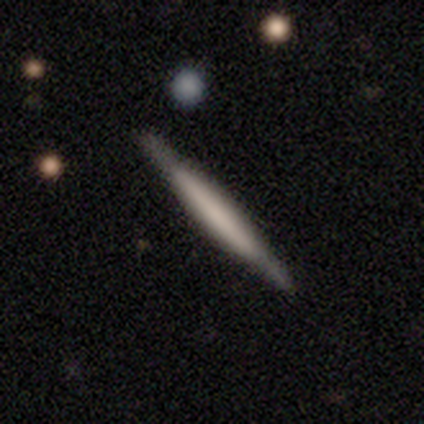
This is clearly a featured or disk galaxy (100%). It is clearly viewed edge-on (100%). Edge-on bulge: clearly boxy (100%). Merging: clearly none (100%).